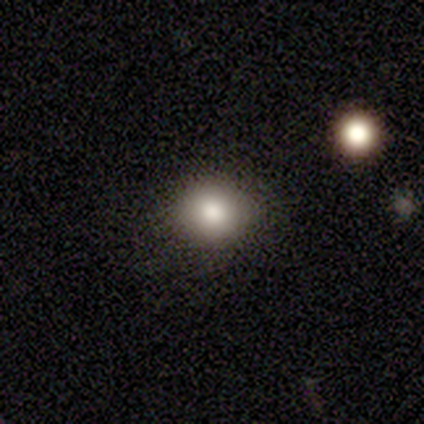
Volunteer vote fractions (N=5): Overall: smooth (80%). How rounded: round (100%). Merging: none (100%).